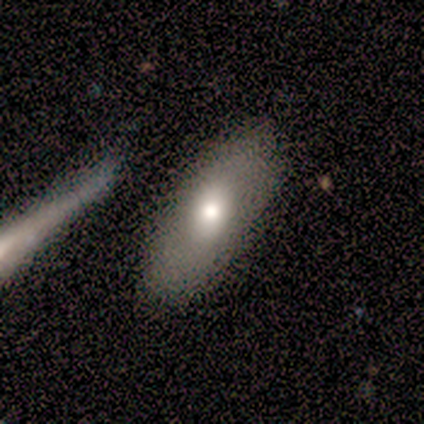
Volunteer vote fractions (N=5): Overall: smooth (80%). How rounded: in between (75%). Merging: none (80%).